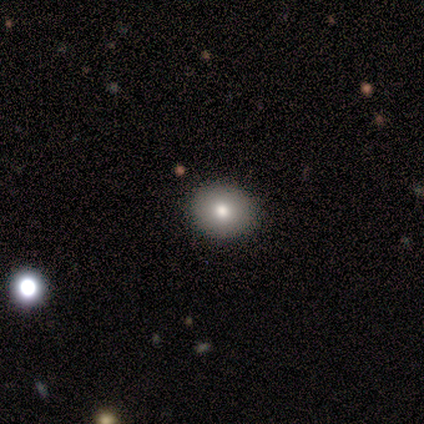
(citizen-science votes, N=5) Overall: smooth (80%). How rounded: round (100%). Merging: none (100%).